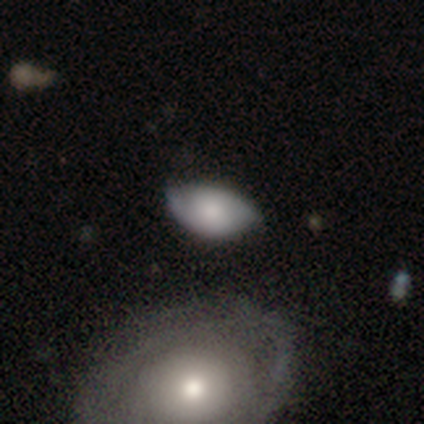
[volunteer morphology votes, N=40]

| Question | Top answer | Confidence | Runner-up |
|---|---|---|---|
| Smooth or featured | smooth | 50% | featured or disk (45%) |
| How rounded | in between | 100% | — |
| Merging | none | 53% | minor disturbance (37%) |